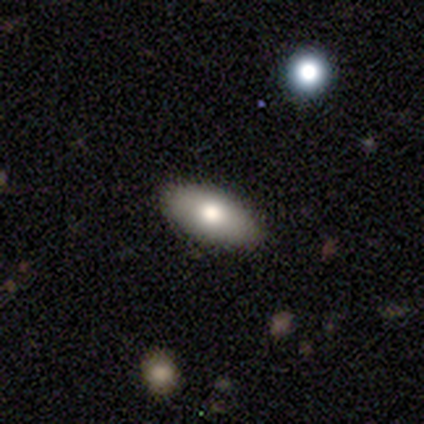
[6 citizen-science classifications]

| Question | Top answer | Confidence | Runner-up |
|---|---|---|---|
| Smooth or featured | smooth | 67% | featured or disk (33%) |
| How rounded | in between | 75% | round (25%) |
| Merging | none | 83% | minor disturbance (17%) |